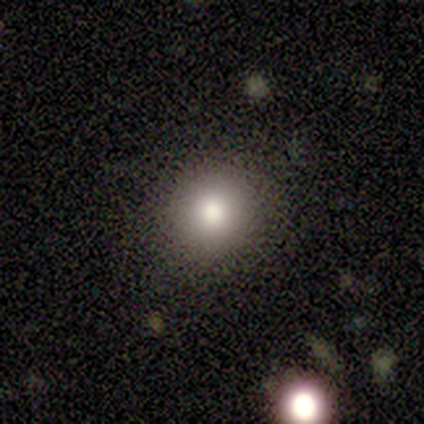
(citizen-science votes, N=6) smooth_or_featured: smooth (p=1.00)
how_rounded: round (p=0.83) [alt: in between p=0.17]
merging: none (p=1.00)